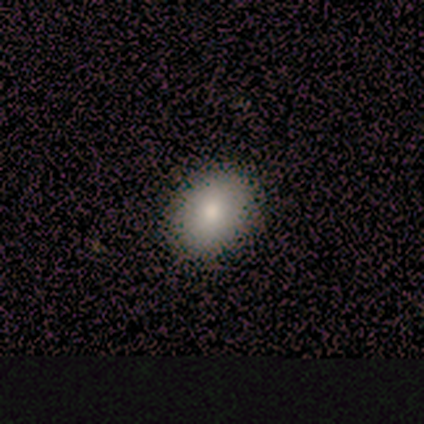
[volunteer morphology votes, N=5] smooth 100%, featured or disk 0%, star or artifact 0%. Down the decision tree: how rounded — in between (60%); merging — none (80%).